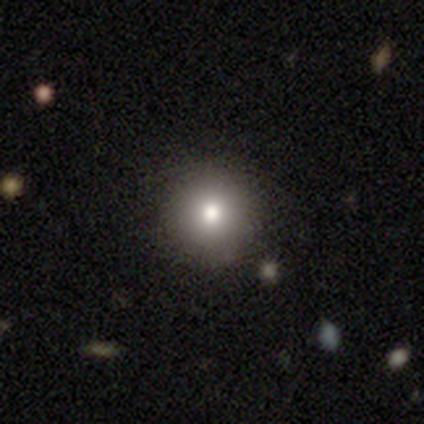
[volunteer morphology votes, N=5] smooth-or-featured: smooth: 80% | star or artifact: 20% | featured or disk: 0%
  how-rounded: round: 100% | in between: 0% | cigar-shaped: 0%
  merging: none: 100% | minor disturbance: 0% | major disturbance: 0% | merger: 0%